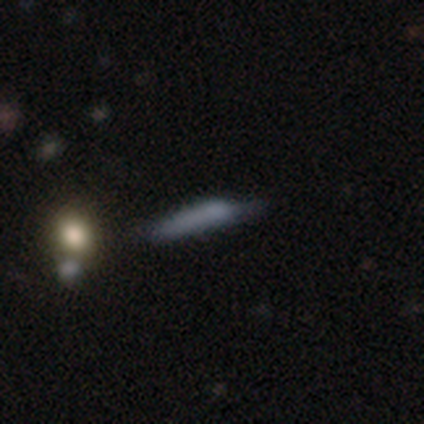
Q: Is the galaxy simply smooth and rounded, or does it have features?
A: star or artifact — 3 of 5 (60%).